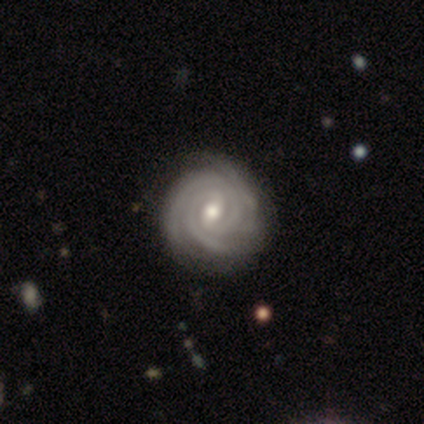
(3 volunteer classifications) Volunteers were most divided on "spiral arm count" (3-way tie): 2: 33%, 4: 33%, can't tell: 33%, 1: 0%, 3: 0%, more than 4: 0%. More confident: smooth or featured — featured or disk (100%); edge-on disk — no (100%); spiral arms — yes (100%); spiral winding — tight (100%); bulge size — moderate (100%); merging — none (100%); bar — weak (67%).